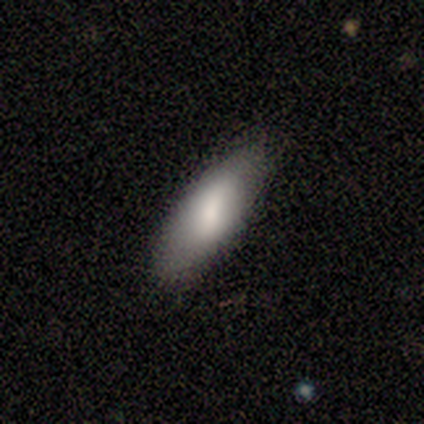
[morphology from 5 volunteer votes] smooth_or_featured: smooth (p=1.00)
how_rounded: in between (p=0.80) [alt: cigar-shaped p=0.20]
merging: none (p=1.00)